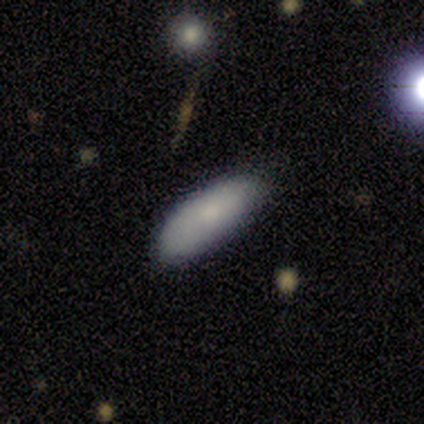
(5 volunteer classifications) smooth-or-featured: smooth: 80% | featured or disk: 20% | star or artifact: 0%
  how-rounded: in between: 100% | round: 0% | cigar-shaped: 0%
  merging: none: 80% | minor disturbance: 20% | major disturbance: 0% | merger: 0%